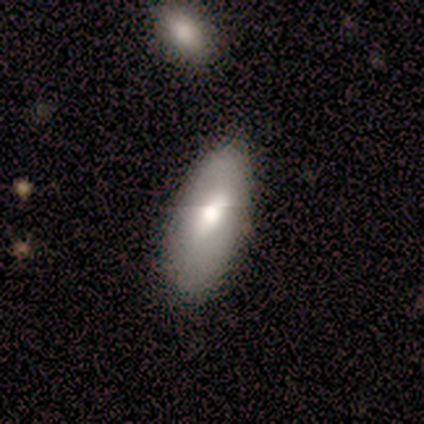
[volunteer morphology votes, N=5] smooth-or-featured: smooth: 60% | featured or disk: 40% | star or artifact: 0%
  how-rounded: in between: 100% | round: 0% | cigar-shaped: 0%
  merging: none: 40% (tied) | minor disturbance: 40% (tied) | major disturbance: 20% | merger: 0%